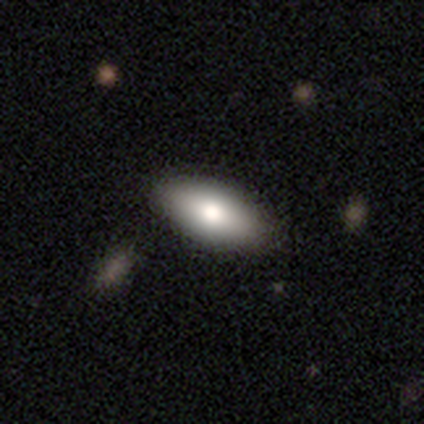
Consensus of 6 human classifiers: Volunteers were most divided on "smooth or featured": smooth: 67%, featured or disk: 17%, star or artifact: 17%. More confident: how rounded — in between (100%); merging — none (80%).